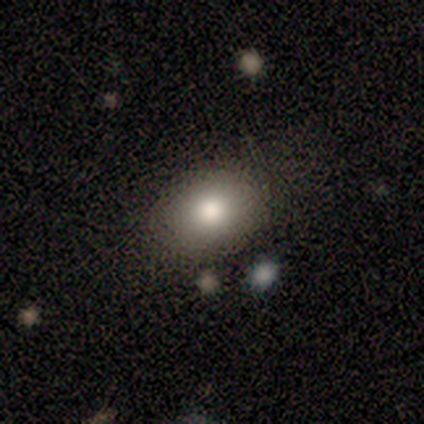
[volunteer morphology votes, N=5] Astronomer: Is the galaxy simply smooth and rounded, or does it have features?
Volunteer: smooth — 80%.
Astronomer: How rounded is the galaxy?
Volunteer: in between — 75%.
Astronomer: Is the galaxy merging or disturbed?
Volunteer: none — 80%.